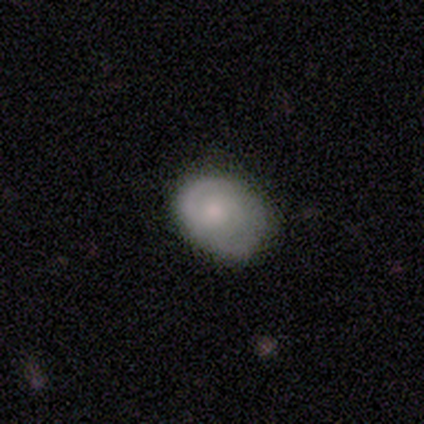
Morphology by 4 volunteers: smooth_or_featured: featured or disk (p=0.50) [alt: smooth p=0.25]
disk_edge_on: no (p=1.00)
bar: weak (p=0.50) [tied with: no p=0.50]
has_spiral_arms: yes (p=1.00)
spiral_winding: medium (p=1.00)
spiral_arm_count: 2 (p=1.00)
bulge_size: moderate (p=1.00)
merging: none (p=1.00)